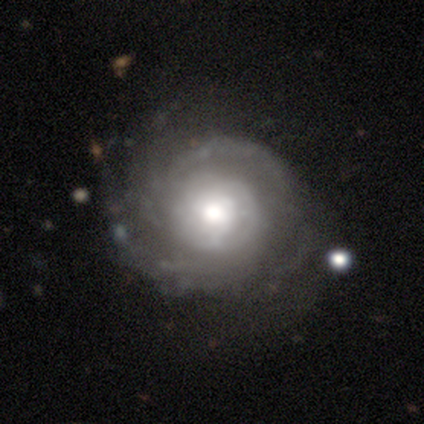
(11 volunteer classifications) featured or disk 91%, smooth 9%, star or artifact 0%. Down the decision tree: edge-on disk — no (100%); bar — no (100%); spiral arms — yes (100%); spiral arm count — 2 (60%); spiral winding — tight (70%); bulge size — moderate (70%); merging — none (82%).